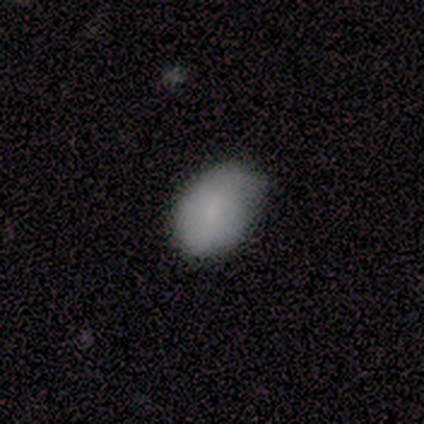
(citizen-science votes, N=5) Volunteers were most divided on "merging": minor disturbance: 60%, none: 40%, major disturbance: 0%, merger: 0%. More confident: smooth or featured — smooth (100%); how rounded — in between (80%).